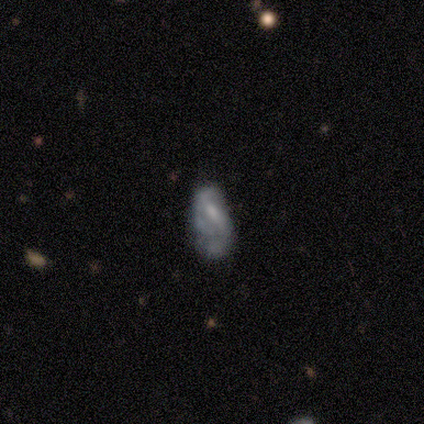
This is likely a featured or disk galaxy (64%). It is clearly not viewed edge-on (100%). Bar: possibly weak (48%). Spiral arm pattern: possibly no (52%). Central bulge: marginally moderate (40%, tied with small). Merging: marginally none (32%).